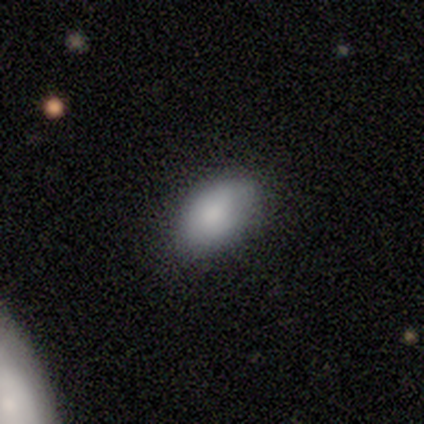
smooth 100%, featured or disk 0%, star or artifact 0%. Down the decision tree: how rounded — in between (80%); merging — none (80%).